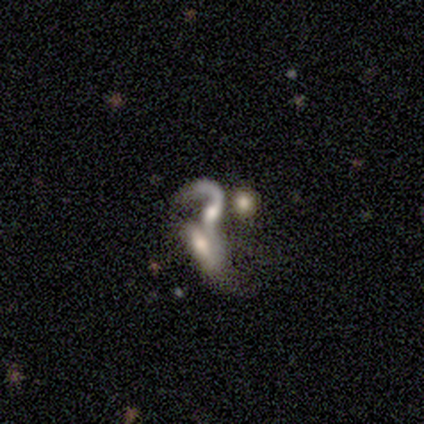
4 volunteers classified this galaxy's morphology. This appears to be a featured or disk galaxy (100%) viewed edge-on (50%, tied with no) with a rounded central bulge (100%). Merging: merger (100%).